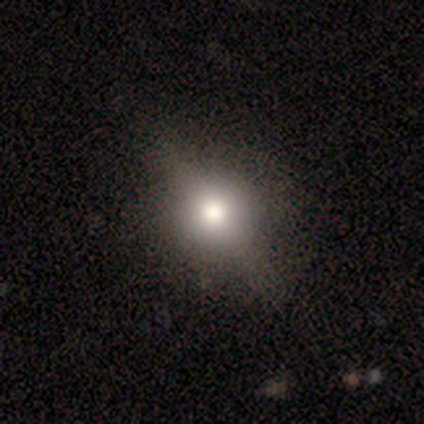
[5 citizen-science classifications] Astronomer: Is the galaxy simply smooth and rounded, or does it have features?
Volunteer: smooth — 60% (runner-up: featured or disk, 40%).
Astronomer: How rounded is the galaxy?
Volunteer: in between — 67%.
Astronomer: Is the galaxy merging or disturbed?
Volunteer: none — 60%.